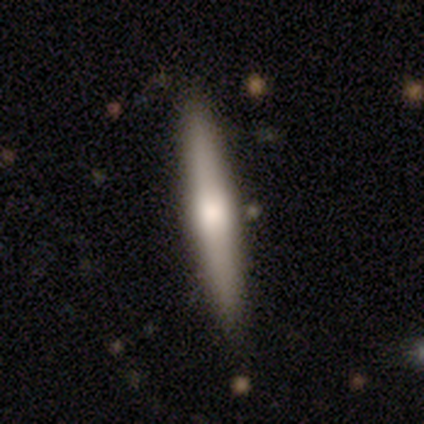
Q: Smooth or featured?
A: smooth (67%); runner-up: featured or disk (33%)
Q: How rounded?
A: cigar-shaped (100%)
Q: Merging?
A: none (100%)